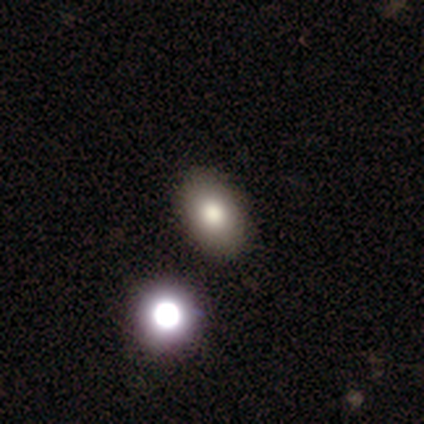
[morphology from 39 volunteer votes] Q: Smooth or featured?
A: smooth (74%); runner-up: star or artifact (21%)
Q: How rounded?
A: in between (72%); runner-up: round (28%)
Q: Merging?
A: none (94%); runner-up: minor disturbance (3%)